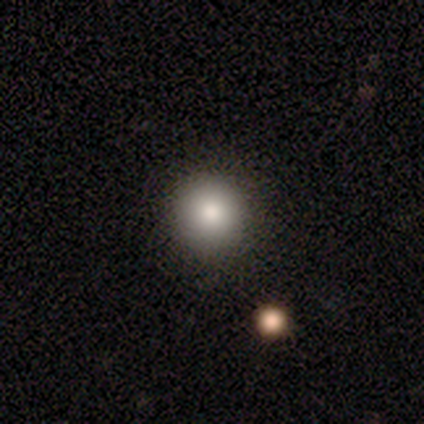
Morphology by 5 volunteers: This is clearly a smooth galaxy (100%). How rounded: clearly round (100%). Merging: clearly none (80%).